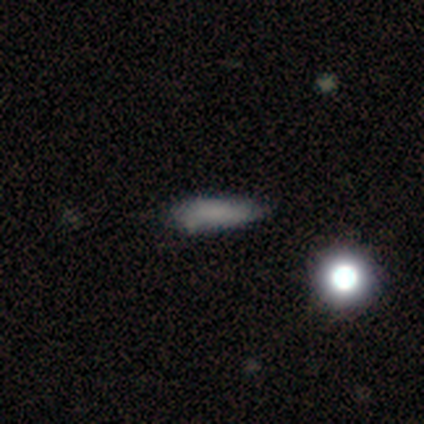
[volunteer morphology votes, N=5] smooth 60%, featured or disk 40%, star or artifact 0%. Down the decision tree: how rounded — in between (100%); merging — minor disturbance (60%).